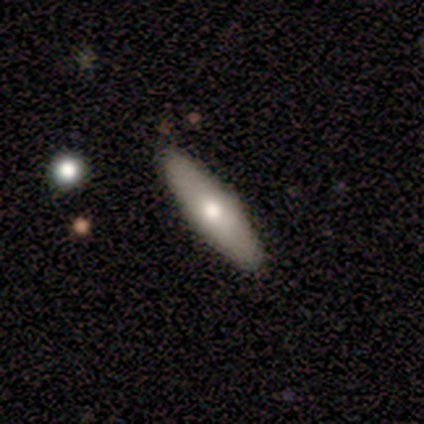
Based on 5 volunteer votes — Smooth or featured: smooth — 100%
How rounded: cigar-shaped — 80% (in between — 20%)
Merging: none — 80% (minor disturbance — 20%)